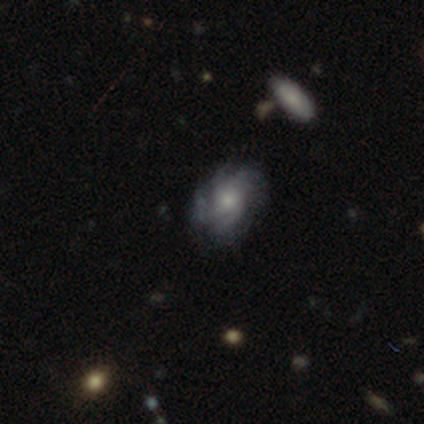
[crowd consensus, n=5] Q: Smooth or featured?
A: featured or disk (60%); runner-up: smooth (40%)
Q: Edge-on disk?
A: no (100%)
Q: Bar?
A: no (100%)
Q: Spiral arms?
A: yes (100%)
Q: Spiral winding?
A: medium (67%); runner-up: tight (33%)
Q: Spiral arm count?
A: can't tell (67%); runner-up: 4 (33%)
Q: Bulge size?
A: moderate (67%); runner-up: small (33%)
Q: Merging?
A: none (40%); runner-up: minor disturbance (20%)